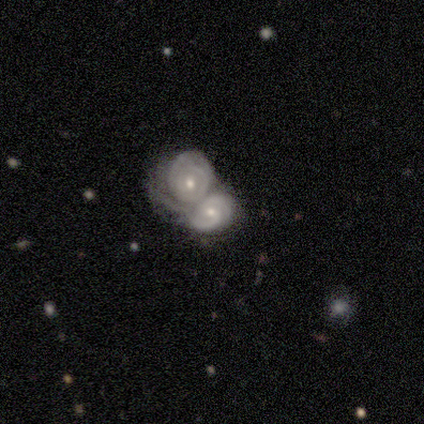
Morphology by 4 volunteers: Overall: featured or disk (100%). Edge-on disk: no (75%). Bar: no (67%; weak 33%). Spiral arms: yes (100%). Spiral arm count: 2 (67%; can't tell 33%). Spiral winding: tight (67%; medium 33%). Bulge size: small (67%; moderate 33%). Merging: merger (75%).